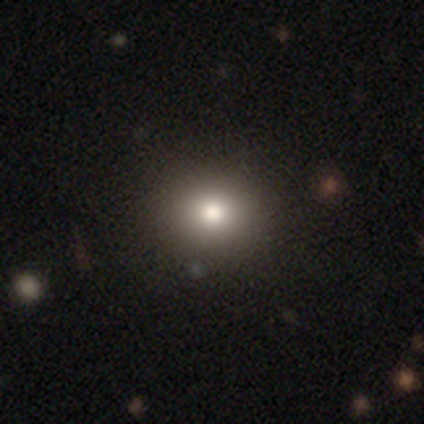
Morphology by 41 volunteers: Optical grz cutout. It shows a smooth galaxy with no disk features (71%) that is round (66%). Merging: none (67%).